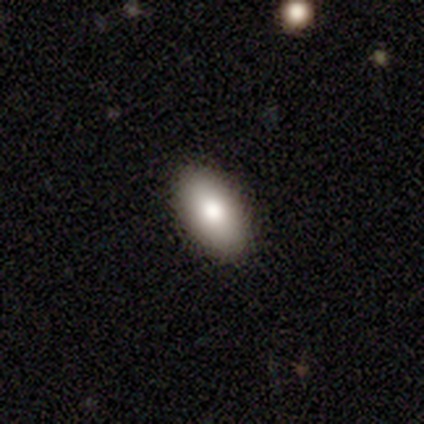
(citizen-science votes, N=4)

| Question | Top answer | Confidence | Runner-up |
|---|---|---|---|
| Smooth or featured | smooth | 75% | featured or disk (25%) |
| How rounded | in between | 100% | — |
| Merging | none | 100% | — |